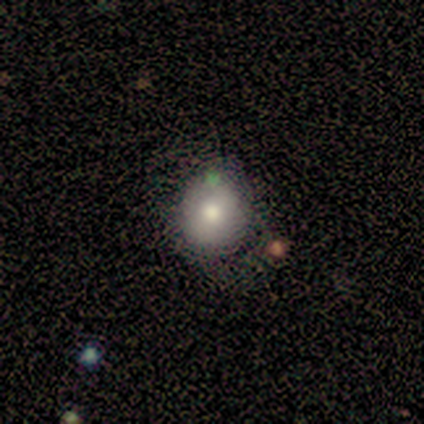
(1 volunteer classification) This is clearly a smooth galaxy (100%). How rounded: clearly in between (100%). Merging: clearly none (100%).